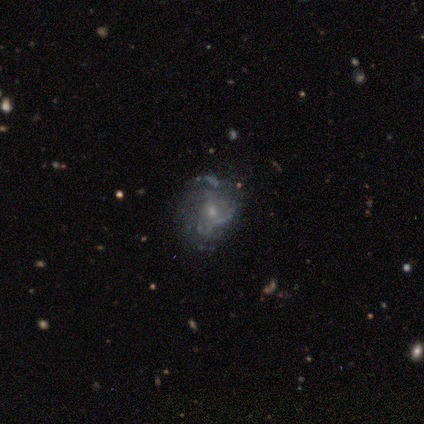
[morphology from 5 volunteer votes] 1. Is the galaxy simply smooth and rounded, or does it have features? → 60% featured or disk, 20% smooth, 20% star or artifact.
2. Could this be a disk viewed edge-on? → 100% no, 0% yes.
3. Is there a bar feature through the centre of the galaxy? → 67% no, 33% weak, 0% strong.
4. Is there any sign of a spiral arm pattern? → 67% no, 33% yes.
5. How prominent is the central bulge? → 67% small, 33% moderate, 0% dominant, 0% large, 0% none.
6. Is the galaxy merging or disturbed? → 100% none, 0% minor disturbance, 0% major disturbance, 0% merger.